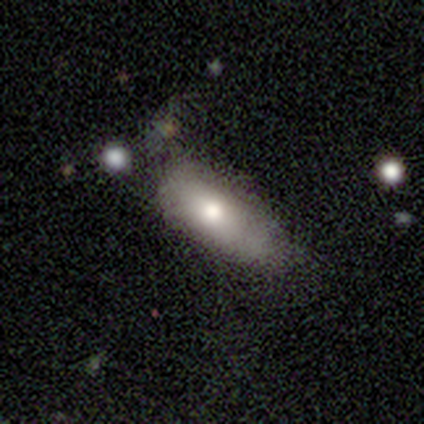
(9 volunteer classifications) Smooth or featured: smooth — 89% (featured or disk — 11%)
How rounded: in between — 88% (round — 12%)
Merging: none — 56% (minor disturbance — 44%)